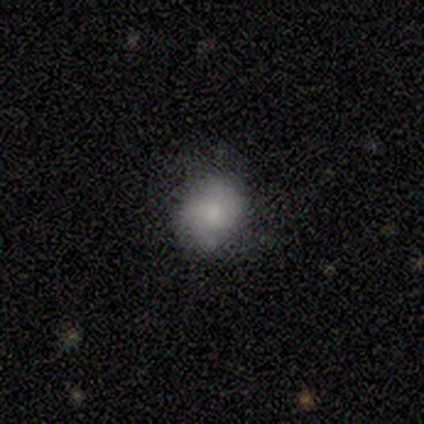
Overall: smooth (80%). How rounded: round (100%). Merging: none (50%, tied with minor disturbance).